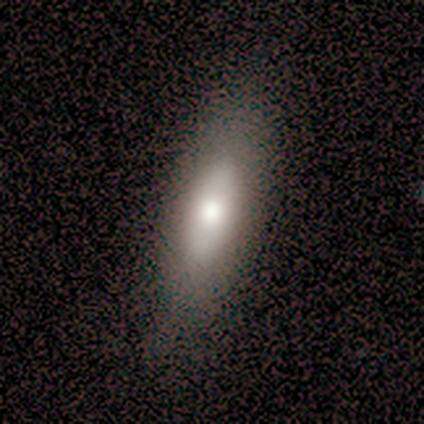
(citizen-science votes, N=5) Q: Smooth or featured?
A: smooth (80%); runner-up: featured or disk (20%)
Q: How rounded?
A: in between (50%); tied with: cigar-shaped (50%)
Q: Merging?
A: none (60%); runner-up: minor disturbance (40%)